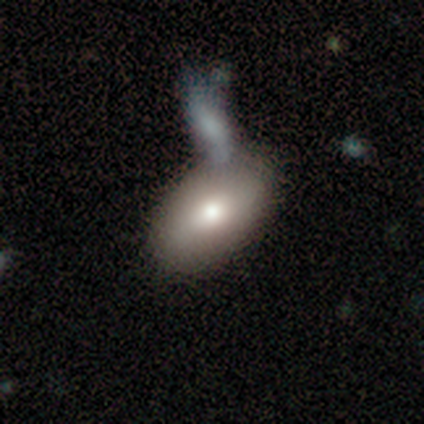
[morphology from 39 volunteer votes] A smooth galaxy with no disk features (77%) that is in between round and cigar-shaped (93%).

Vote fractions:
- Smooth or featured? smooth: 77% / featured or disk: 18% / star or artifact: 5%
- How rounded? in between: 93% / round: 7% / cigar-shaped: 0%
- Merging? none: 51% / merger: 38% / major disturbance: 8% / minor disturbance: 3%